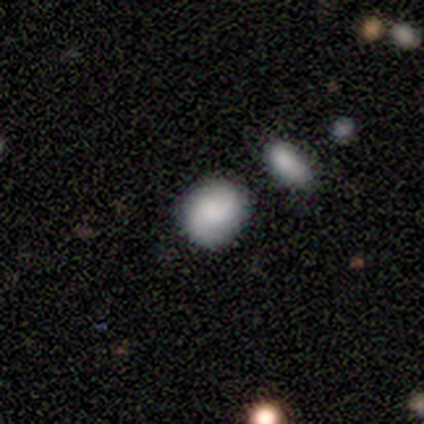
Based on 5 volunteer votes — smooth_or_featured: smooth (p=0.60) [alt: featured or disk p=0.20]
how_rounded: in between (p=0.67) [alt: round p=0.33]
merging: none (p=1.00)